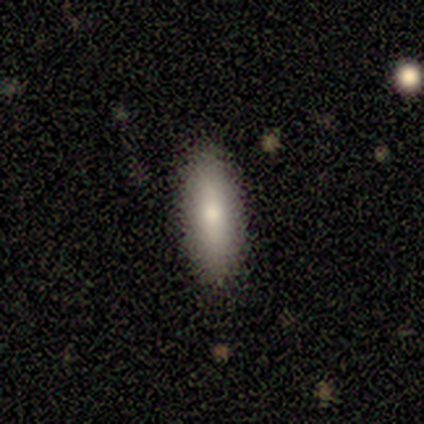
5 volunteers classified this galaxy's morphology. Smooth or featured? 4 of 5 (80%) said smooth. How rounded? 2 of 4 (50%) said in between. Merging? 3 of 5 (60%) said none.